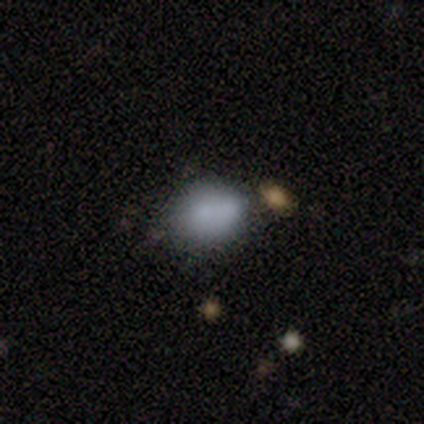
Smooth or featured? smooth (80%)
How rounded? in between (75%)
Merging? none (40%, tied with minor disturbance)